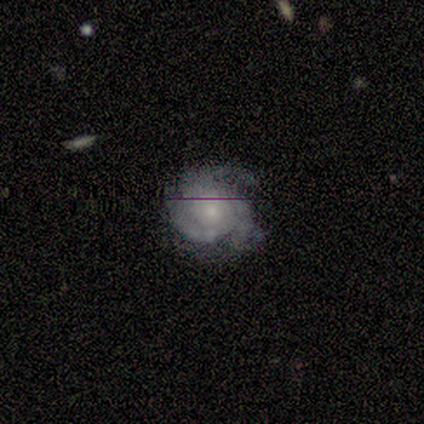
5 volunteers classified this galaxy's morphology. A featured or disk galaxy (80%) with no bar (100%), 3 (100%) tight (75%) spiral arms (100%) and a small central bulge (75%).

Vote fractions:
- Smooth or featured? featured or disk: 80% / smooth: 20% / star or artifact: 0%
- Edge-on disk? no: 100% / yes: 0%
- Bar? no: 100% / strong: 0% / weak: 0%
- Spiral arms? yes: 100% / no: 0%
- Spiral winding? tight: 75% / medium: 25% / loose: 0%
- Spiral arm count? 3: 100% / 1: 0% / 2: 0% / 4: 0% / more than 4: 0% / can't tell: 0%
- Bulge size? small: 75% / none: 25% / dominant: 0% / large: 0% / moderate: 0%
- Merging? minor disturbance: 40% / none: 20% / major disturbance: 20% / merger: 20%